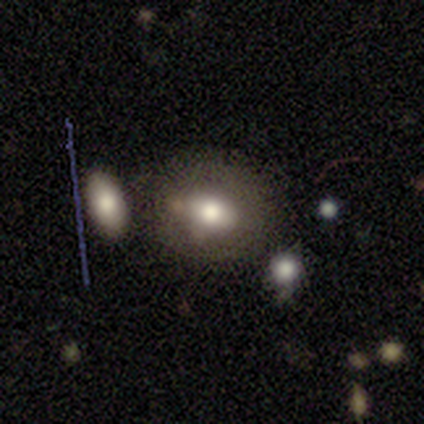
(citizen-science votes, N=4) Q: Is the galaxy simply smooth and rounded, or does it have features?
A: smooth — 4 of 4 (100%).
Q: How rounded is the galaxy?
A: in between — 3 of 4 (75%).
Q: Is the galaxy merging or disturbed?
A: none — 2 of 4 (50%, tied with merger).